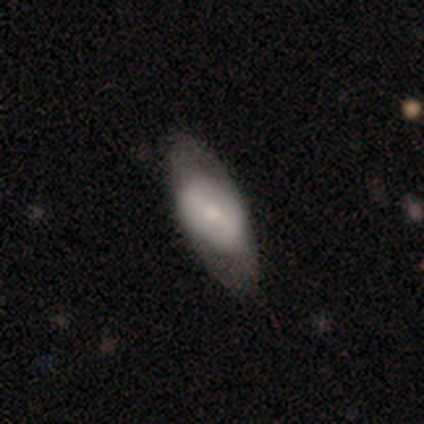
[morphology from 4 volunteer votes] Smooth or featured?
  - smooth: 50% *
  - featured or disk: 25%
  - star or artifact: 25%
How rounded?
  - in between: 100% *
  - round: 0%
  - cigar-shaped: 0%
Merging?
  - none: 67% *
  - minor disturbance: 33%
  - major disturbance: 0%
  - merger: 0%